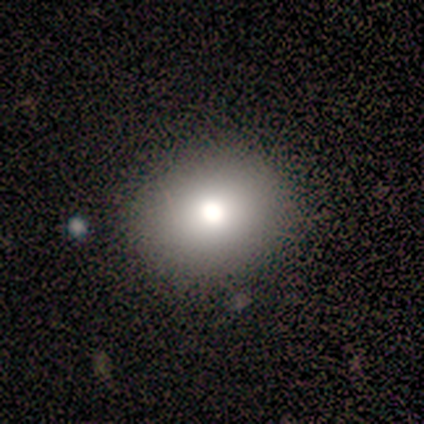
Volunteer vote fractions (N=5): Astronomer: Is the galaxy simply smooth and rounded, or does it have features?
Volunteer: smooth — 100%.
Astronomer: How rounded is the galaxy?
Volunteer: in between — 60% (runner-up: round, 40%).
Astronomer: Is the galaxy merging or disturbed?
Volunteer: none — 80%.